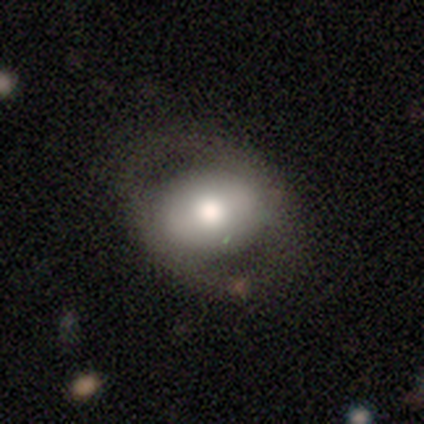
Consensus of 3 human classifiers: This is likely a smooth galaxy (67%). How rounded: possibly round (50%, tied with in between). Merging: likely none (67%).